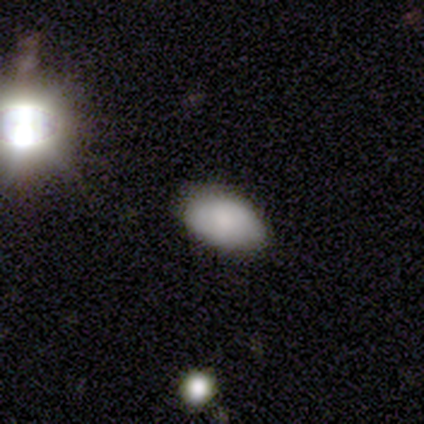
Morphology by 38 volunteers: Overall: smooth (76%). How rounded: in between (97%). Merging: none (69%; minor disturbance 31%).